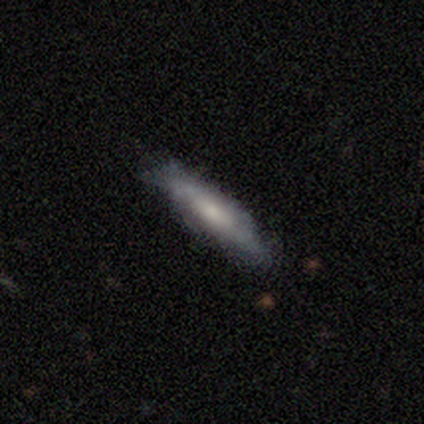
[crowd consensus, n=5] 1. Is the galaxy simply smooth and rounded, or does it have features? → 40% smooth (tied), 40% featured or disk (tied), 20% star or artifact.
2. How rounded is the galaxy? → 100% cigar-shaped, 0% round, 0% in between.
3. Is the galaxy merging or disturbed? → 50% none (tied), 50% minor disturbance (tied), 0% major disturbance, 0% merger.